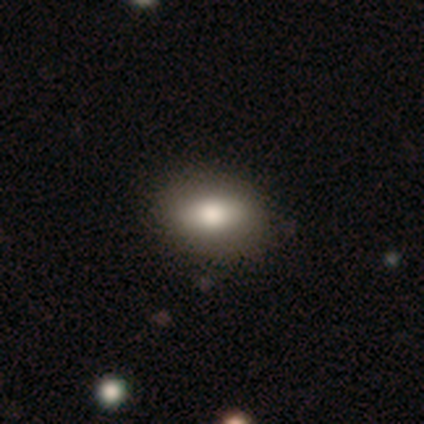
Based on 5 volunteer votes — Q: Smooth or featured?
A: smooth (80%); runner-up: featured or disk (20%)
Q: How rounded?
A: in between (100%)
Q: Merging?
A: none (100%)